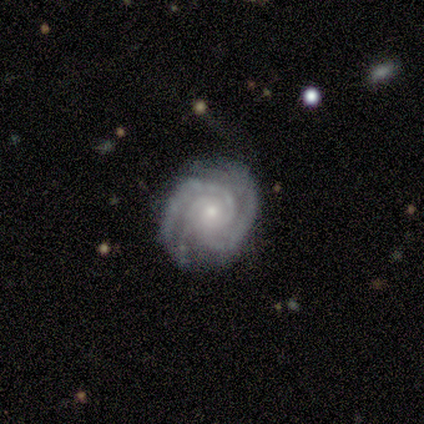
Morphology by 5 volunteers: Smooth or featured: featured or disk — 100%
Edge-on disk: no — 100%
Bar: no — 80% (weak — 20%)
Spiral arms: yes — 100%
Spiral winding: medium — 60% (tight — 40%)
Spiral arm count: 3 — 40% (2 — 20%)
Bulge size: small — 60% (moderate — 40%)
Merging: none — 100%